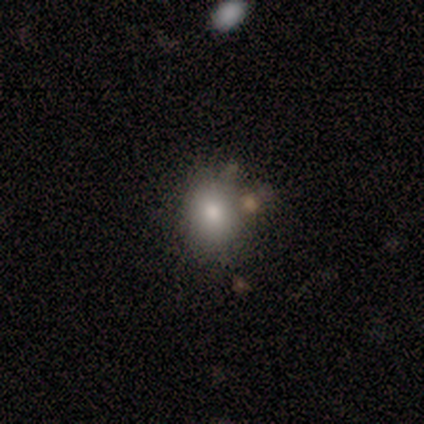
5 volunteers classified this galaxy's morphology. A smooth galaxy with no disk features (60%) that is in between round and cigar-shaped (67%). Merging: minor disturbance (75%).